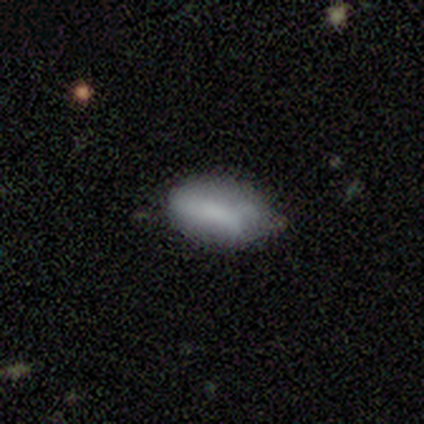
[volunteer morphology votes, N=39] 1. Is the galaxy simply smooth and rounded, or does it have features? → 77% smooth, 21% featured or disk, 3% star or artifact.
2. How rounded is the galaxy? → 97% in between, 3% round, 0% cigar-shaped.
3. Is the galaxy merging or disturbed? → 55% none, 42% minor disturbance, 3% merger, 0% major disturbance.